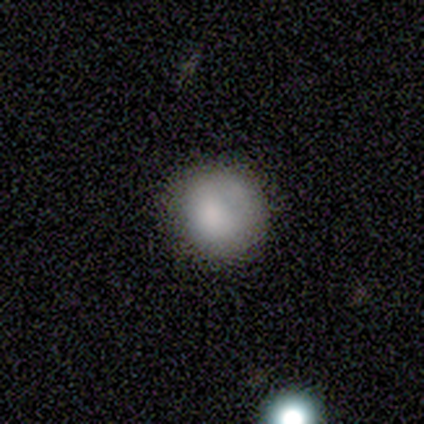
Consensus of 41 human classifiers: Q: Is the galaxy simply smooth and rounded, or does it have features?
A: smooth — 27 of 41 (66%).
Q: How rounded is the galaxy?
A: round — 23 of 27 (85%).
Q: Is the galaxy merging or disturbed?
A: none — 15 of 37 (41%).